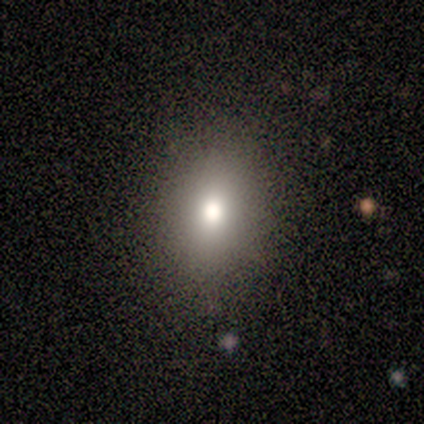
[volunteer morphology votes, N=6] Smooth or featured?
  - smooth: 67% *
  - star or artifact: 33%
  - featured or disk: 0%
How rounded?
  - round: 50% * (tied)
  - in between: 50% * (tied)
  - cigar-shaped: 0%
Merging?
  - none: 75% *
  - minor disturbance: 25%
  - major disturbance: 0%
  - merger: 0%